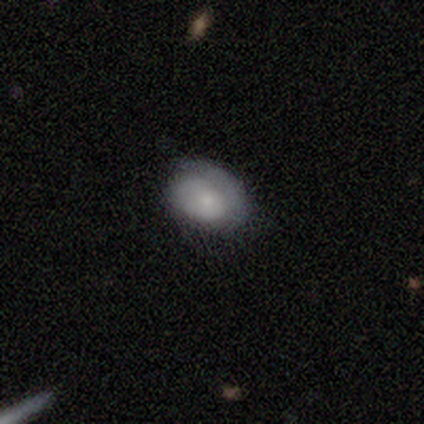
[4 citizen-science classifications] smooth 100%, featured or disk 0%, star or artifact 0%. Down the decision tree: how rounded — round (50%, tied with in between); merging — none (75%).